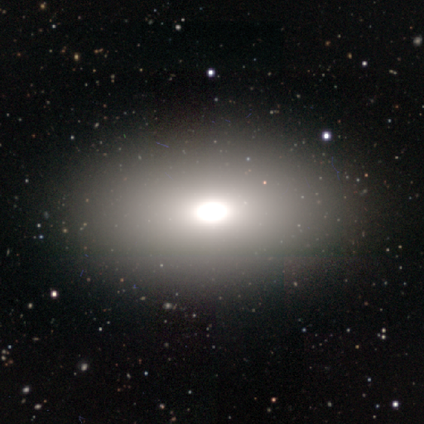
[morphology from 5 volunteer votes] This is clearly a smooth galaxy (80%). How rounded: likely in between (75%). Merging: clearly none (100%).